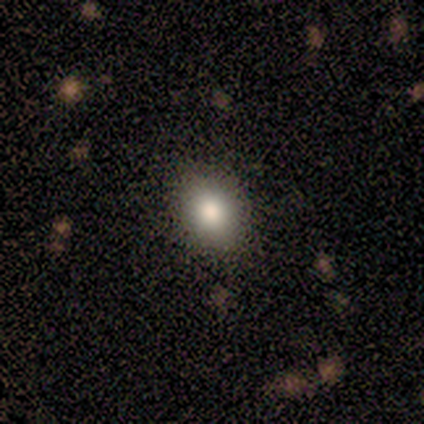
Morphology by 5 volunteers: smooth-or-featured: smooth: 80% | star or artifact: 20% | featured or disk: 0%
  how-rounded: in between: 75% | round: 25% | cigar-shaped: 0%
  merging: none: 75% | minor disturbance: 25% | major disturbance: 0% | merger: 0%